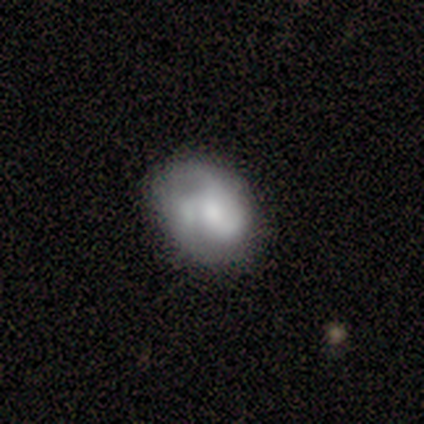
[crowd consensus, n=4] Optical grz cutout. It shows a smooth galaxy with no disk features (50%, tied with featured or disk) that is round (100%). Merging: none (75%).